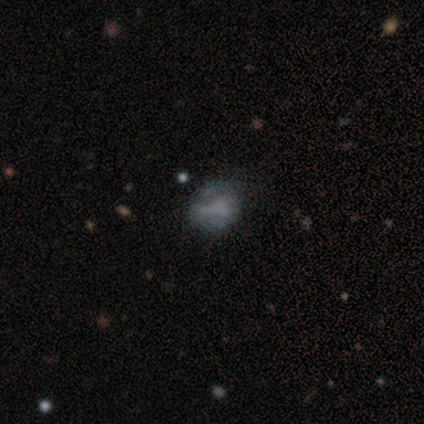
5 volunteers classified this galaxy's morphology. Q: Smooth or featured?
A: smooth (80%); runner-up: star or artifact (20%)
Q: How rounded?
A: in between (75%); runner-up: round (25%)
Q: Merging?
A: none (75%); runner-up: merger (25%)